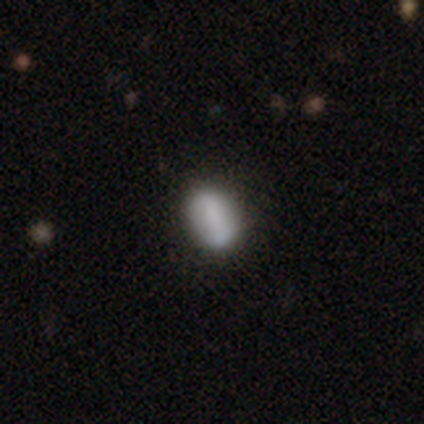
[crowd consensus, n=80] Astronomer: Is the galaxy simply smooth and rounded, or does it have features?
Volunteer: smooth — 72%.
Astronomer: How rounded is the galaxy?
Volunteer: in between — 83%.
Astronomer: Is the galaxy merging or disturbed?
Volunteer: none — 43%.